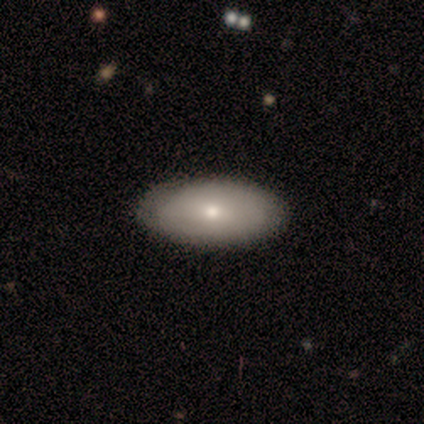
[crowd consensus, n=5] Morphology: type=smooth (80%); roundness=in between (100%); merging=none (100%).